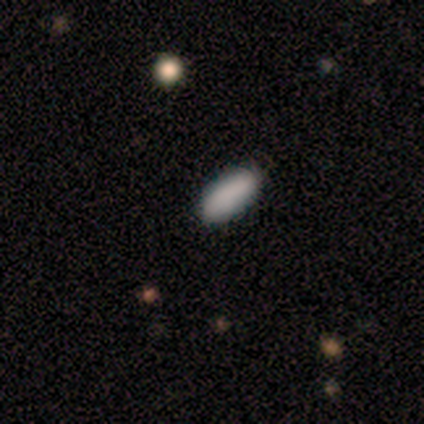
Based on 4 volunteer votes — Smooth or featured: smooth — 100%
How rounded: in between — 50% (tied with cigar-shaped — 50%)
Merging: none — 50% (tied with minor disturbance — 50%)